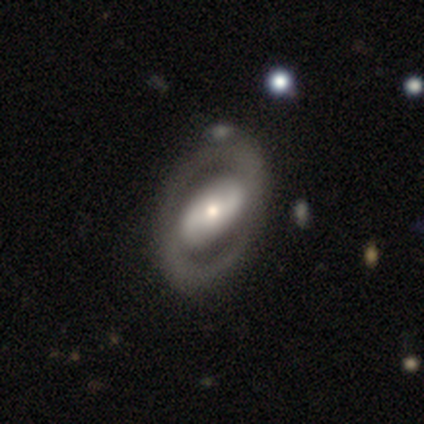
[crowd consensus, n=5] A featured or disk galaxy (100%) with a strong bar (75%), 2 (100%) medium (75%) spiral arms (100%) and a moderate central bulge (50%).

Vote fractions:
- Smooth or featured? featured or disk: 100% / smooth: 0% / star or artifact: 0%
- Edge-on disk? no: 80% / yes: 20%
- Bar? strong: 75% / no: 25% / weak: 0%
- Spiral arms? yes: 100% / no: 0%
- Spiral winding? medium: 75% / tight: 25% / loose: 0%
- Spiral arm count? 2: 100% / 1: 0% / 3: 0% / 4: 0% / more than 4: 0% / can't tell: 0%
- Bulge size? moderate: 50% / large: 25% / small: 25% / dominant: 0% / none: 0%
- Merging? none: 100% / minor disturbance: 0% / major disturbance: 0% / merger: 0%